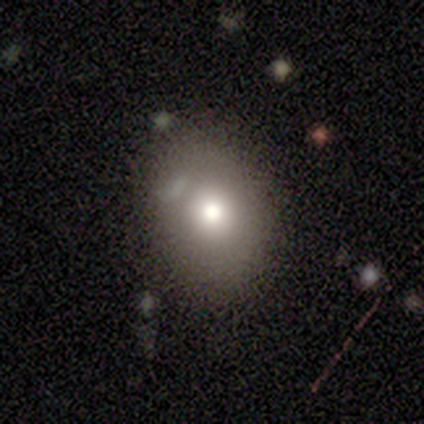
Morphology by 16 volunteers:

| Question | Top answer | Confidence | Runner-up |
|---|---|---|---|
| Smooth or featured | smooth | 62% | featured or disk (19%) |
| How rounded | in between | 60% | round (40%) |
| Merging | none | 85% | major disturbance (8%) |